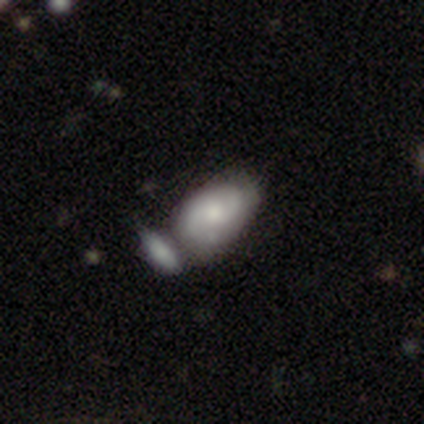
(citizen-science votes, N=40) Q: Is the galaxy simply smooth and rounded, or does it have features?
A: featured or disk — 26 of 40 (65%).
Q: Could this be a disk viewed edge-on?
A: no — 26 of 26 (100%).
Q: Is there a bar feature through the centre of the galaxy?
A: no — 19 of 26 (73%).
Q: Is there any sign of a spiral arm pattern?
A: yes — 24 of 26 (92%).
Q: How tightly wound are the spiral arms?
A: medium — 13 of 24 (54%).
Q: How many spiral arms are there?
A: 2 — 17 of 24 (71%).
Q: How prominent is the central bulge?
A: moderate — 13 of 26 (50%).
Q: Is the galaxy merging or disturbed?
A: merger — 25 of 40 (62%).